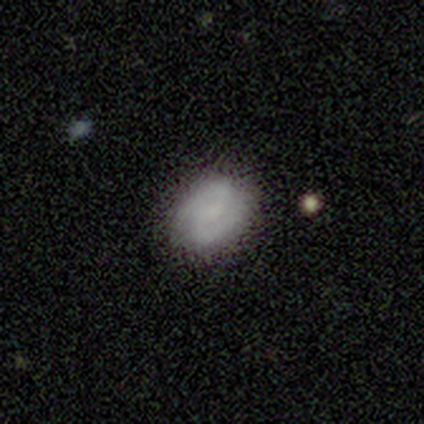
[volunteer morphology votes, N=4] Smooth or featured?
  - smooth: 50% * (tied)
  - featured or disk: 50% * (tied)
  - star or artifact: 0%
How rounded?
  - round: 100% *
  - in between: 0%
  - cigar-shaped: 0%
Merging?
  - none: 75% *
  - minor disturbance: 25%
  - major disturbance: 0%
  - merger: 0%